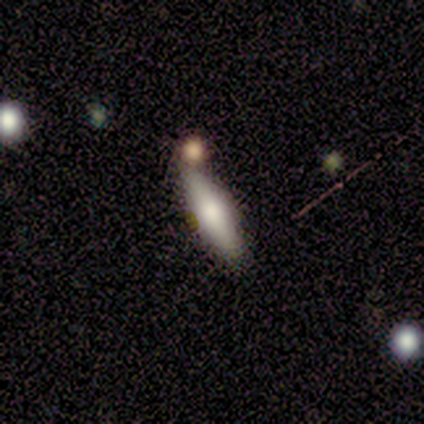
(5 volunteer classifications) This appears to be a smooth galaxy with no disk features (60%) that is cigar-shaped (67%). Merging: none (80%).